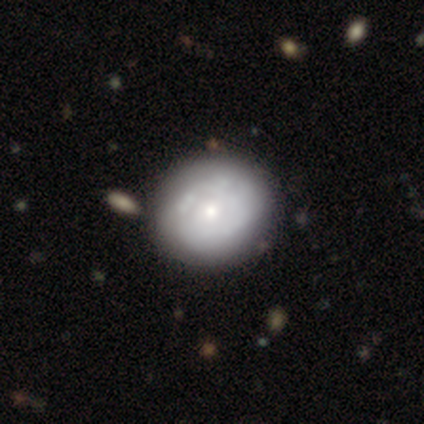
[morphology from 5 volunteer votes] Q: Smooth or featured?
A: featured or disk (80%); runner-up: smooth (20%)
Q: Edge-on disk?
A: no (100%)
Q: Bar?
A: no (100%)
Q: Spiral arms?
A: yes (50%); tied with: no (50%)
Q: Spiral winding?
A: tight (100%)
Q: Spiral arm count?
A: can't tell (100%)
Q: Bulge size?
A: small (100%)
Q: Merging?
A: none (80%); runner-up: minor disturbance (20%)